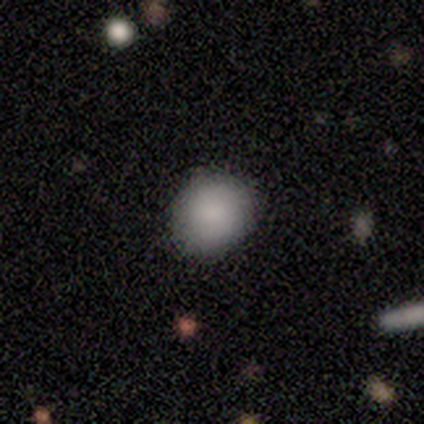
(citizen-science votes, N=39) This is clearly a smooth galaxy (85%). How rounded: clearly round (85%). Merging: clearly none (81%).